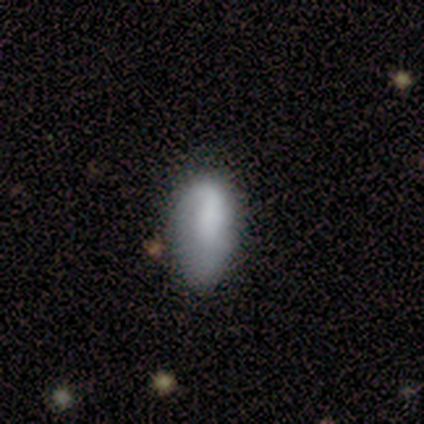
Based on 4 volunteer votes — smooth_or_featured: smooth (p=0.50) [tied with: featured or disk p=0.50]
how_rounded: in between (p=1.00)
merging: none (p=0.50) [alt: minor disturbance p=0.25]